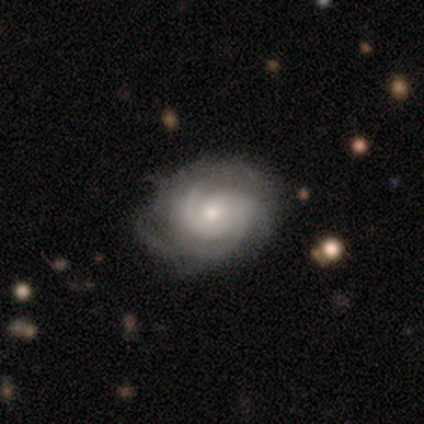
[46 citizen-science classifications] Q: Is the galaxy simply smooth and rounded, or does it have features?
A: featured or disk — 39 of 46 (85%).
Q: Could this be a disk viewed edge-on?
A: no — 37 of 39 (95%).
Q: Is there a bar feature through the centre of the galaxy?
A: no — 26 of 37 (70%).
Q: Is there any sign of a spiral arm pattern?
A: yes — 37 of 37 (100%).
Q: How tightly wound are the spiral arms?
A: tight — 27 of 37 (73%).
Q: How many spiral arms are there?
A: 2 — 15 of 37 (41%).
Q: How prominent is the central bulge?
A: small — 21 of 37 (57%).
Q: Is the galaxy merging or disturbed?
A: none — 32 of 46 (70%).